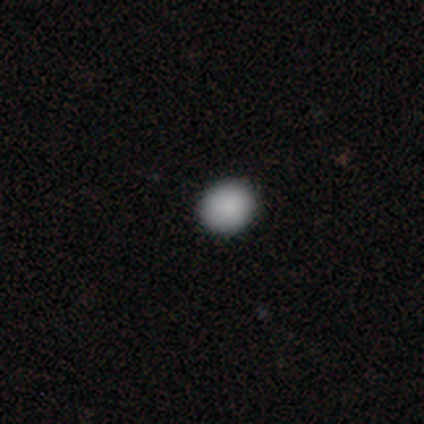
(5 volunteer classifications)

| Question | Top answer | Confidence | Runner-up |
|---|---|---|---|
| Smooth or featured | smooth | 100% | — |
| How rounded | round | 80% | in between (20%) |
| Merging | none | 80% | minor disturbance (20%) |